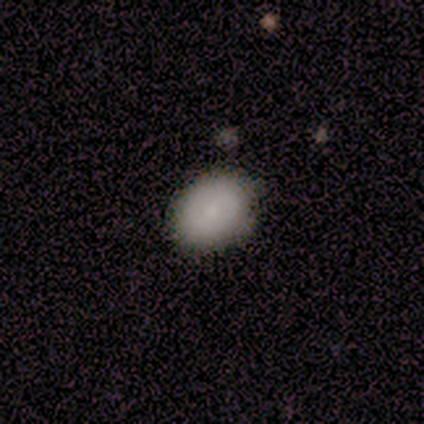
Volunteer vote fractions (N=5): Smooth or featured? 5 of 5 (100%) said smooth. How rounded? 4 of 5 (80%) said in between. Merging? 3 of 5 (60%) said none.